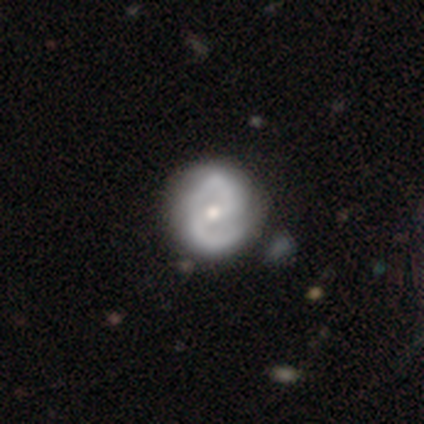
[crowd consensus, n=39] This is clearly a featured or disk galaxy (85%). It is clearly not viewed edge-on (100%). Bar: marginally no (39%). Spiral arm pattern: clearly yes (100%). Spiral arm count: clearly 2 (94%). Spiral winding: possibly medium (45%). Central bulge: likely moderate (67%). Merging: marginally none (44%).